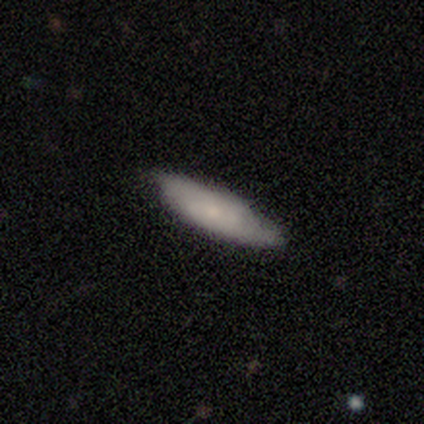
Overall: smooth (75%). How rounded: cigar-shaped (56%; in between 44%). Merging: none (80%).